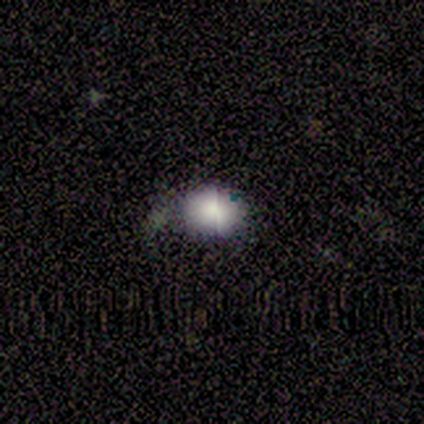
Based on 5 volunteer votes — smooth_or_featured: smooth (p=0.40) [tied with: star or artifact p=0.40]
how_rounded: in between (p=1.00)
merging: none (p=0.67) [alt: major disturbance p=0.33]